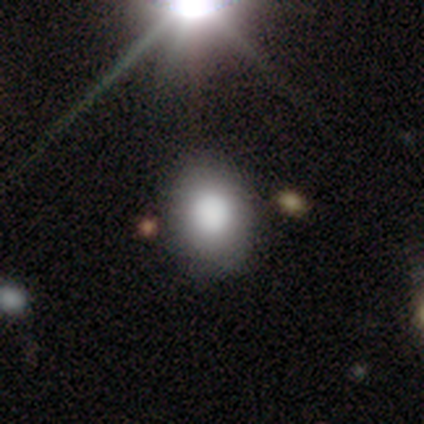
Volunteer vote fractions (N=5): This is clearly a smooth galaxy (80%). How rounded: possibly round (50%, tied with in between). Merging: likely none (75%).